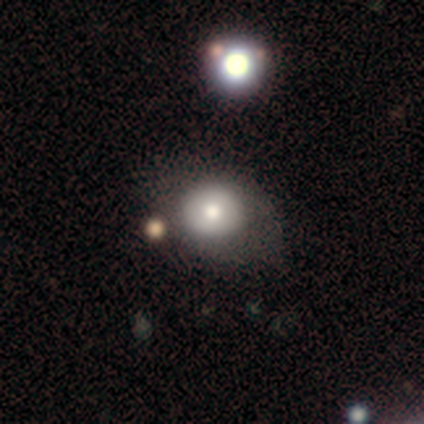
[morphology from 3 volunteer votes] Smooth or featured? 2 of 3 (67%) said smooth. How rounded? 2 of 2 (100%) said round. Merging? 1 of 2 (50%, tied with minor disturbance) said none.